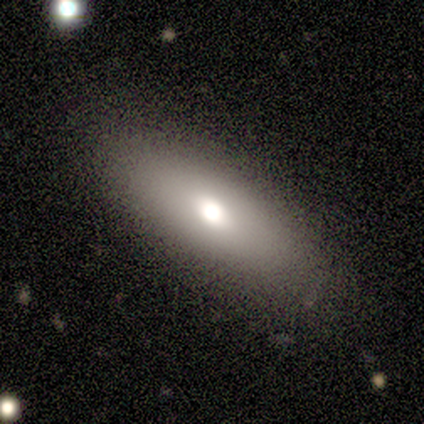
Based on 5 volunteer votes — smooth_or_featured: smooth (p=0.80) [alt: featured or disk p=0.20]
how_rounded: in between (p=0.75) [alt: cigar-shaped p=0.25]
merging: none (p=1.00)